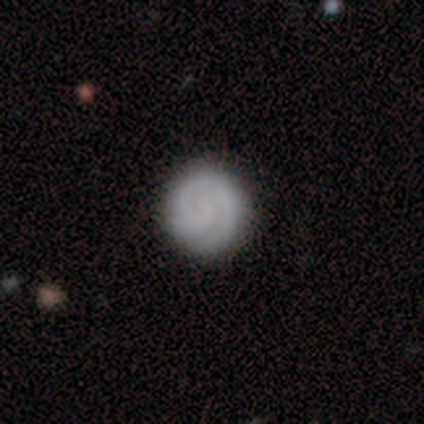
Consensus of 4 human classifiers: smooth 75%, featured or disk 25%, star or artifact 0%. Down the decision tree: how rounded — round (100%); merging — none (100%).